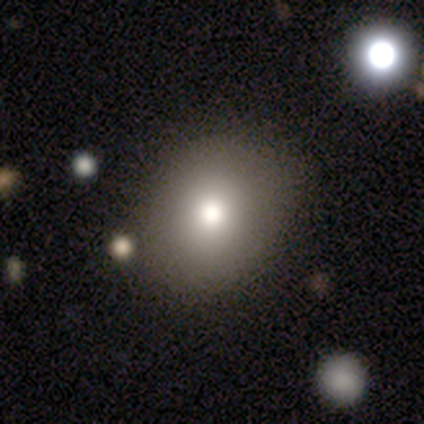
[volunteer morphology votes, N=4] A smooth galaxy with no disk features (100%) that is round (100%). Merging: none (75%).